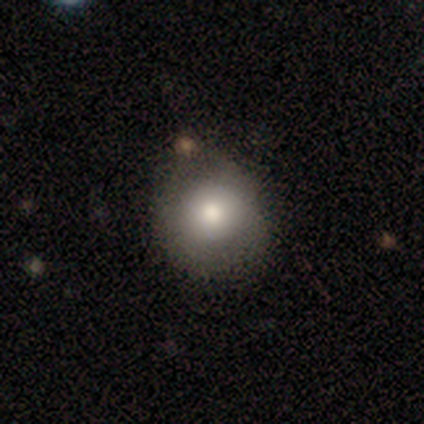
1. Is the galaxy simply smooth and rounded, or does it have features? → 100% smooth, 0% featured or disk, 0% star or artifact.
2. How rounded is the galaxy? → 80% round, 20% in between, 0% cigar-shaped.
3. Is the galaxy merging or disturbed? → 80% none, 20% major disturbance, 0% minor disturbance, 0% merger.